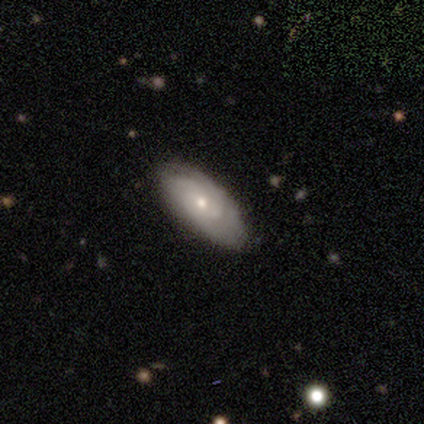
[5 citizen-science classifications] Smooth or featured: smooth — 40% (tied with featured or disk — 40%)
How rounded: in between — 50% (tied with cigar-shaped — 50%)
Merging: none — 100%